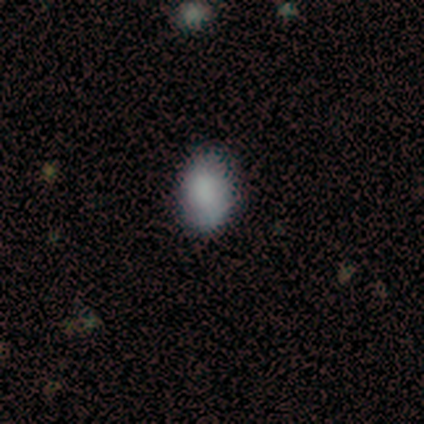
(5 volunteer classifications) Smooth or featured: smooth — 100%
How rounded: in between — 100%
Merging: none — 100%